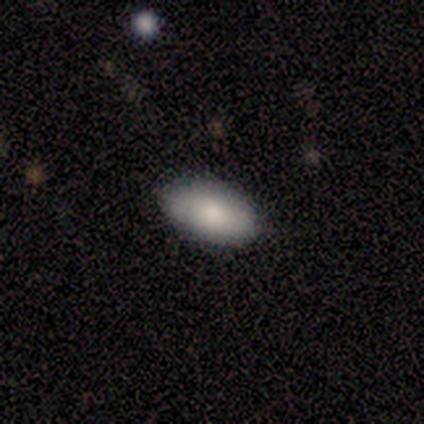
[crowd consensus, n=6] Volunteers were most divided on "smooth or featured": smooth: 83%, featured or disk: 17%, star or artifact: 0%. More confident: how rounded — in between (100%); merging — none (100%).